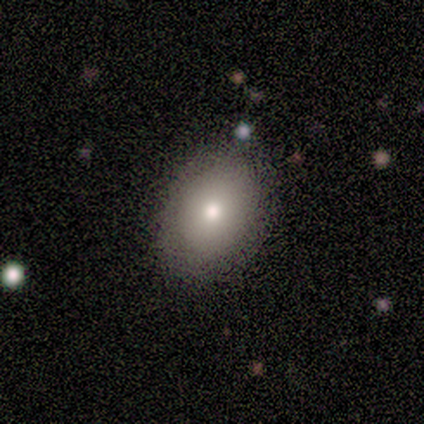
smooth_or_featured: smooth (p=1.00)
how_rounded: in between (p=1.00)
merging: none (p=0.60) [alt: minor disturbance p=0.40]